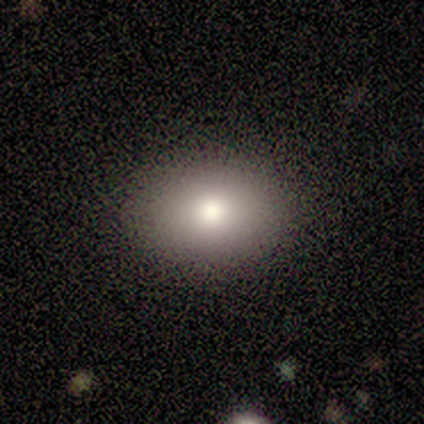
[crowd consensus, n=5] Smooth or featured? 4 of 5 (80%) said smooth. How rounded? 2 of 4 (50%, tied with in between) said round. Merging? 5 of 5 (100%) said none.